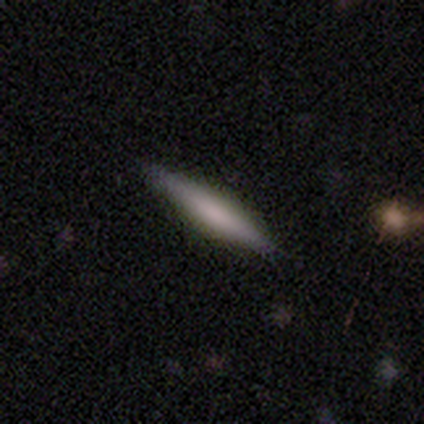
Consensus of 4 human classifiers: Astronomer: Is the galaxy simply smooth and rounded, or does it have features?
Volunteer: smooth — 50%, tied with featured or disk at 50%.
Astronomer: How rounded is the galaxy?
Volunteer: cigar-shaped — 100%.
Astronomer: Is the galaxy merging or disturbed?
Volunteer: none — 75%.